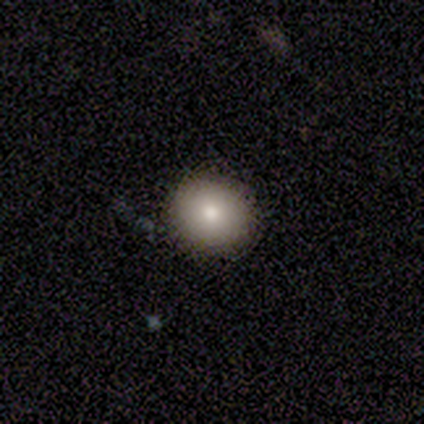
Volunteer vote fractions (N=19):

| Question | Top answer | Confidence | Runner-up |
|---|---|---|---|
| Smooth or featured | smooth | 89% | featured or disk (11%) |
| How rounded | round | 76% | in between (24%) |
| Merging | none | 74% | minor disturbance (26%) |